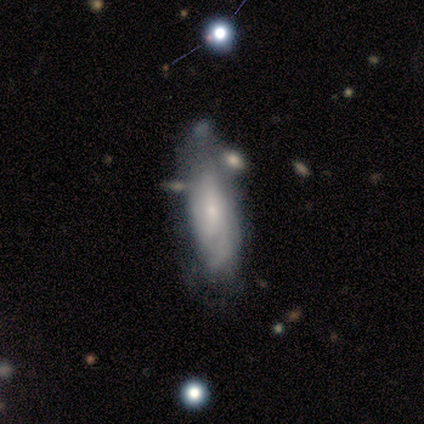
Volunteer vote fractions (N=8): This appears to be a featured or disk galaxy (75%) with no bar (67%), 2 (33%, tied with more than 4 and can't tell) tight (33%, tied with medium and loose) spiral arms (50%, tied with no) and a small central bulge (83%). Merging: none (50%).